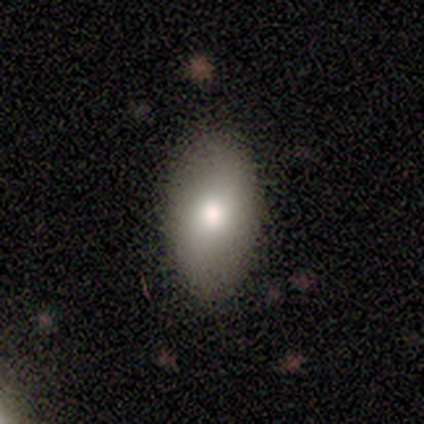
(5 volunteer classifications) Consensus on every question: smooth or featured — smooth (100%); how rounded — in between (100%); merging — none (100%).